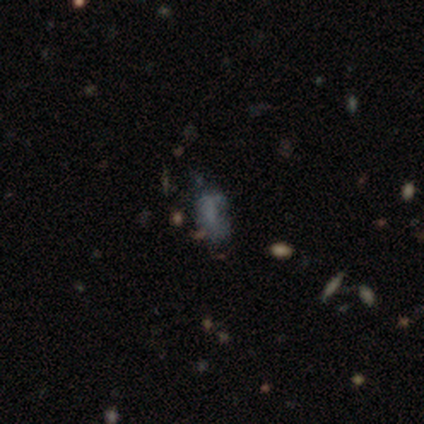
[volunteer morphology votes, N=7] Q: Smooth or featured?
A: smooth (86%); runner-up: featured or disk (14%)
Q: How rounded?
A: in between (100%)
Q: Merging?
A: minor disturbance (57%); runner-up: none (29%)